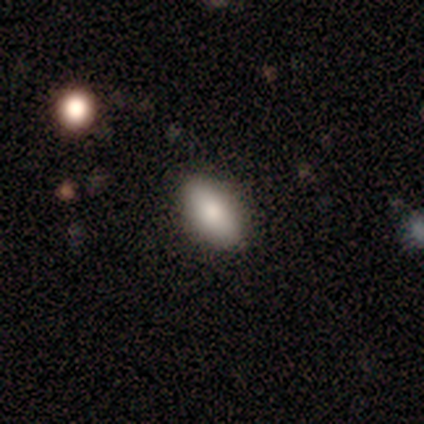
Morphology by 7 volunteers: This appears to be a smooth galaxy with no disk features (71%) that is in between round and cigar-shaped (100%). Merging: none (71%).